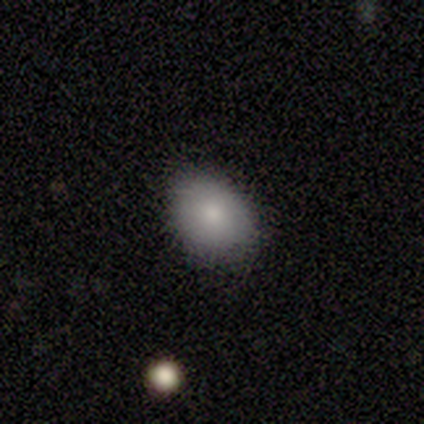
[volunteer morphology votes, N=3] Smooth or featured? 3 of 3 (100%) said smooth. How rounded? 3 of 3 (100%) said in between. Merging? 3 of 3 (100%) said none.